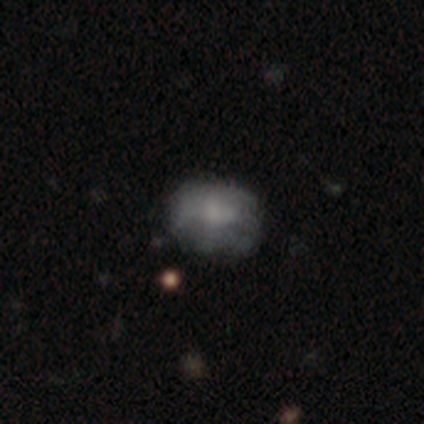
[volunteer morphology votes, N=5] type=smooth (80%); roundness=in between (75%); merging=none (40%, tied with minor disturbance).